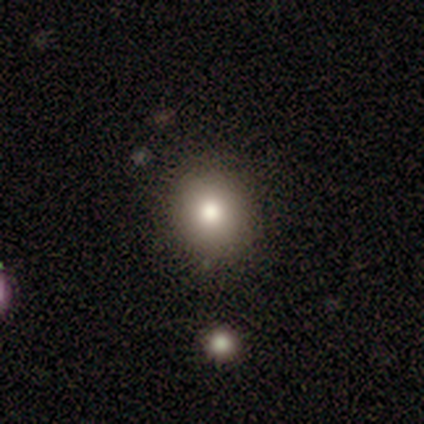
Smooth or featured? smooth (100%)
How rounded? round (100%)
Merging? none (100%)